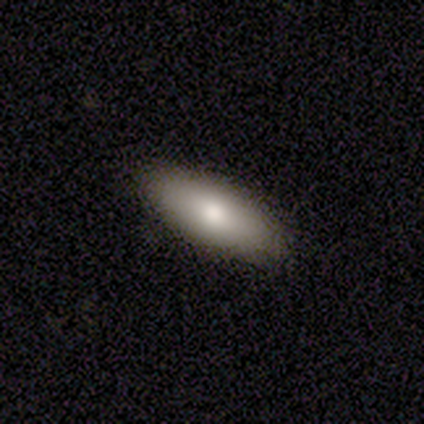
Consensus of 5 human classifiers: Smooth or featured?
  - smooth: 100% *
  - featured or disk: 0%
  - star or artifact: 0%
How rounded?
  - in between: 100% *
  - round: 0%
  - cigar-shaped: 0%
Merging?
  - none: 100% *
  - minor disturbance: 0%
  - major disturbance: 0%
  - merger: 0%